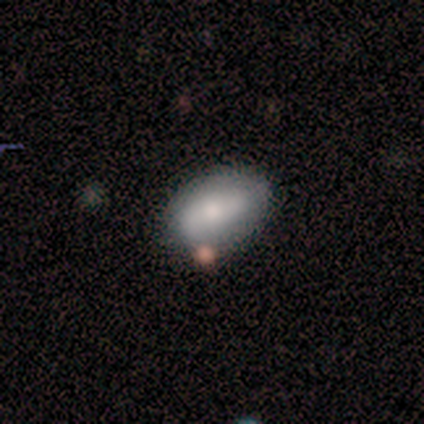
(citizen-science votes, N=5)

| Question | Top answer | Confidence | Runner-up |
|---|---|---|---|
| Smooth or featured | smooth | 100% | — |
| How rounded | in between | 100% | — |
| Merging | none | 60% | minor disturbance (40%) |